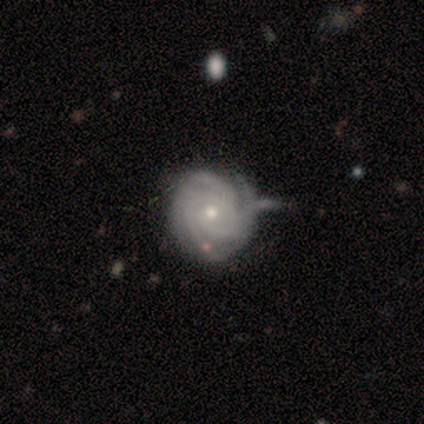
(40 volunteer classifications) Volunteers were most divided on "merging": none: 45%, minor disturbance: 28%, merger: 8%, major disturbance: 5%. More confident: spiral arms — yes (100%); smooth or featured — featured or disk (98%); edge-on disk — no (97%); bar — no (89%); spiral winding — tight (74%); bulge size — small (58%); spiral arm count — 3 (58%).